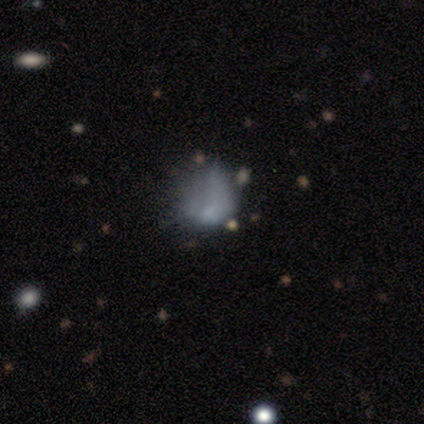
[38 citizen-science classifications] Q: Smooth or featured?
A: smooth (45%); tied with: featured or disk (45%)
Q: How rounded?
A: in between (71%); runner-up: round (29%)
Q: Merging?
A: major disturbance (24%); runner-up: none (21%)